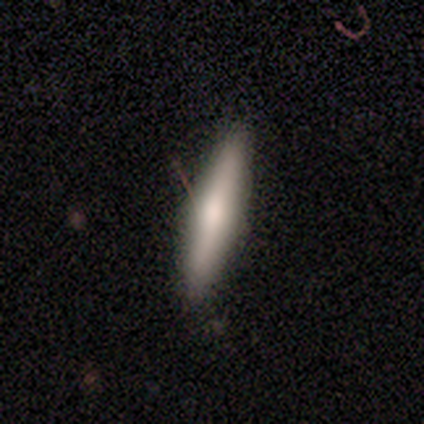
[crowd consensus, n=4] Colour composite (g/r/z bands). It shows a smooth galaxy with no disk features (50%, tied with featured or disk) that is cigar-shaped (100%). Merging: none (100%).